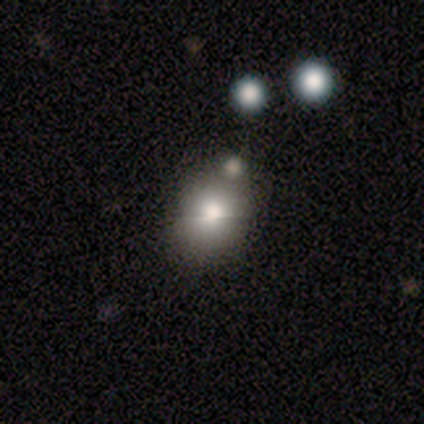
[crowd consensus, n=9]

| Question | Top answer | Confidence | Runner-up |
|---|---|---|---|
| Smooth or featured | smooth | 67% | star or artifact (33%) |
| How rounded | round | 50% | tied: in between (50%) |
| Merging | minor disturbance | 67% | none (33%) |